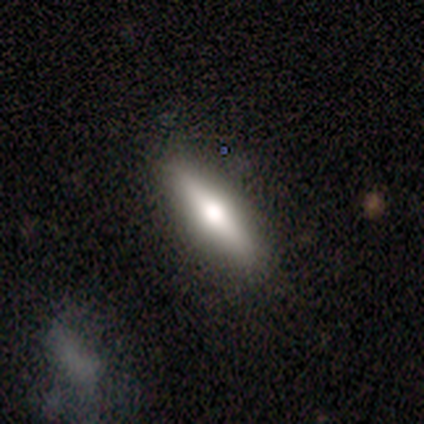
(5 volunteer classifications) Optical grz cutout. It shows a featured or disk galaxy (60%) viewed edge-on (100%) with a rounded central bulge (100%). Merging: none (80%).